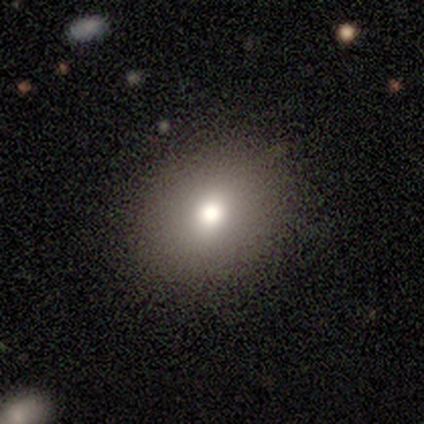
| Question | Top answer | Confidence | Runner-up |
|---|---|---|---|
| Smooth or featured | smooth | 83% | featured or disk (17%) |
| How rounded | round | 80% | in between (20%) |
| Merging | none | 100% | — |